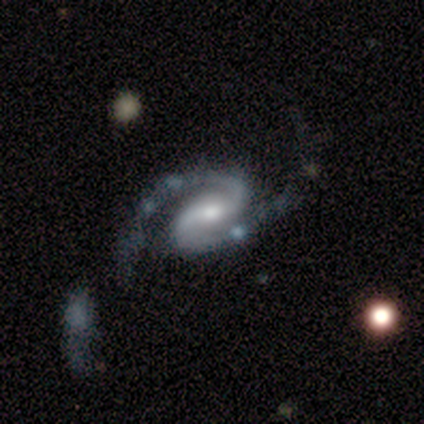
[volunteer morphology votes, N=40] featured or disk 98%, smooth 2%, star or artifact 0%. Down the decision tree: edge-on disk — no (100%); bar — weak (49%); spiral arms — yes (97%); spiral arm count — 2 (97%); spiral winding — medium (47%); bulge size — moderate (46%); merging — none (55%).